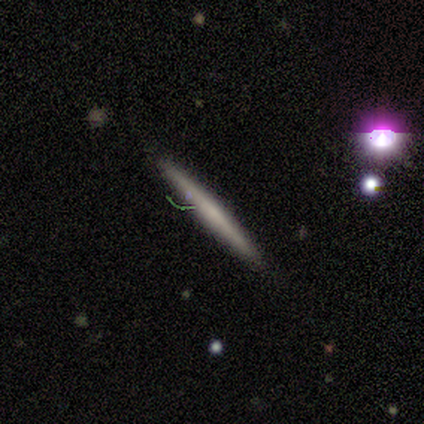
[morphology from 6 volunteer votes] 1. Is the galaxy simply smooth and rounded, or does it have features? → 50% smooth (tied), 50% featured or disk (tied), 0% star or artifact.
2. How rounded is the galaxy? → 100% cigar-shaped, 0% round, 0% in between.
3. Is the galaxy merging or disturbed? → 100% none, 0% minor disturbance, 0% major disturbance, 0% merger.